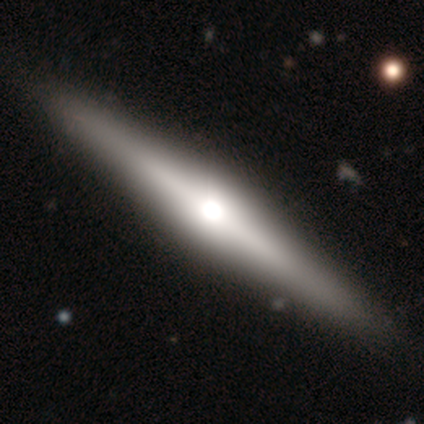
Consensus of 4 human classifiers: smooth-or-featured: featured or disk: 75% | star or artifact: 25% | smooth: 0%
  disk-edge-on: yes: 100% | no: 0%
    edge-on-bulge: rounded: 100% | boxy: 0% | none: 0%
  merging: none: 100% | minor disturbance: 0% | major disturbance: 0% | merger: 0%